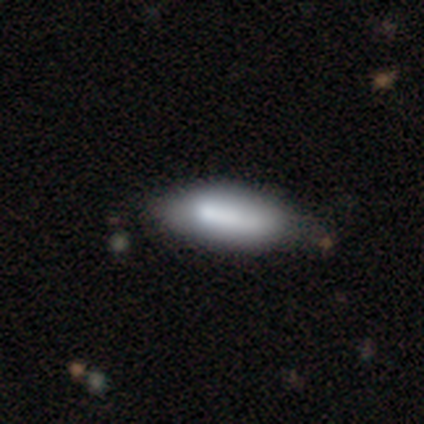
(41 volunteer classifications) smooth 76%, featured or disk 22%, star or artifact 2%. Down the decision tree: how rounded — in between (68%); merging — none (38%).